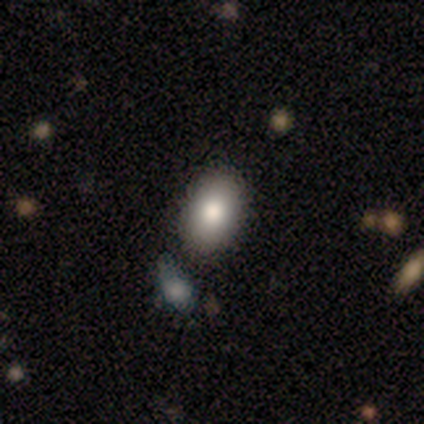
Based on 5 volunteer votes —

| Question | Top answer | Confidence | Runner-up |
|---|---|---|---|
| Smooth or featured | smooth | 100% | — |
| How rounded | in between | 100% | — |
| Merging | none | 80% | merger (20%) |